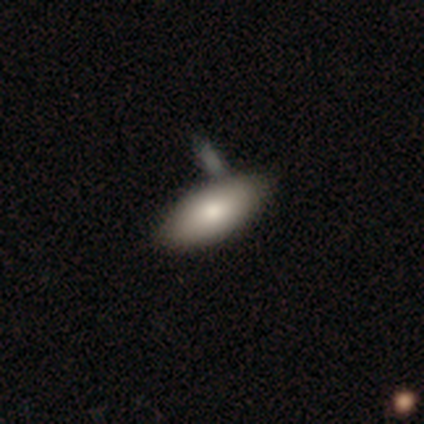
Smooth or featured?
  - smooth: 82% *
  - featured or disk: 15%
  - star or artifact: 3%
How rounded?
  - in between: 97% *
  - round: 3%
  - cigar-shaped: 0%
Merging?
  - none: 42% *
  - merger: 34%
  - minor disturbance: 5%
  - major disturbance: 0%